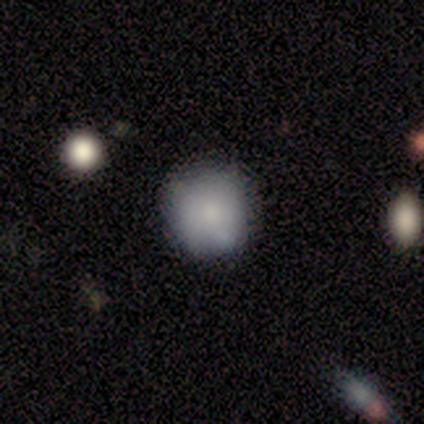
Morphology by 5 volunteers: smooth_or_featured: smooth (p=0.60) [alt: featured or disk p=0.40]
how_rounded: round (p=1.00)
merging: none (p=0.60) [alt: minor disturbance p=0.40]